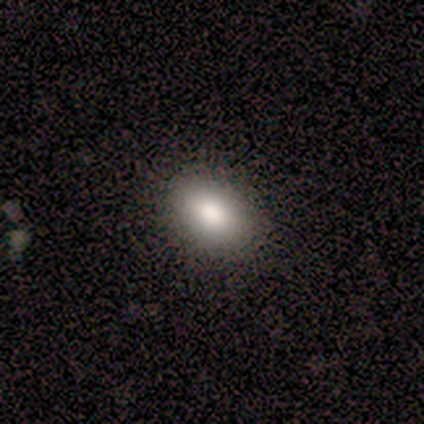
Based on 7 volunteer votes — smooth_or_featured: smooth (p=0.86) [alt: featured or disk p=0.14]
how_rounded: in between (p=0.67) [alt: round p=0.33]
merging: none (p=0.43) [tied with: minor disturbance p=0.43]